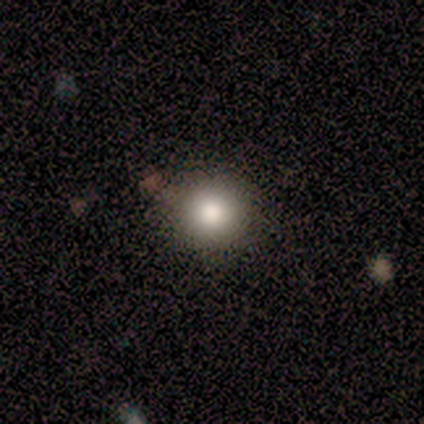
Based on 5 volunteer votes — smooth 80%, star or artifact 20%, featured or disk 0%. Down the decision tree: how rounded — round (75%); merging — none (100%).